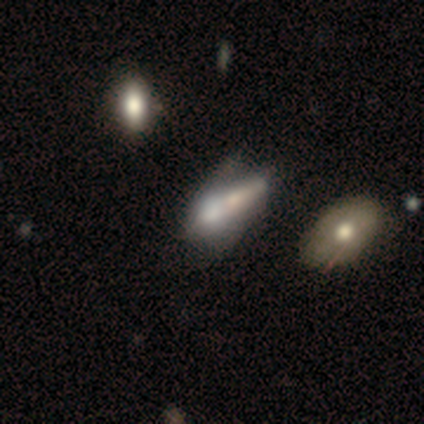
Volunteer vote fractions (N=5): A featured or disk galaxy (40%, tied with star or artifact) with no bar (100%), no spiral arms (100%) and a large central bulge (50%, tied with moderate). Merging: merger (67%).